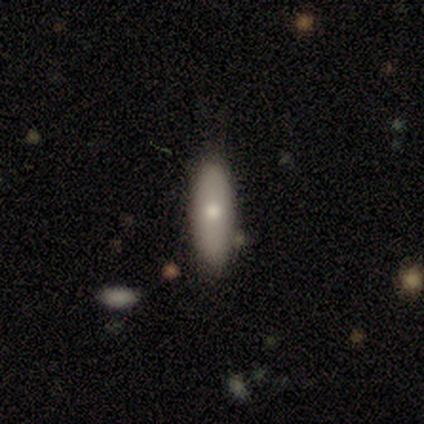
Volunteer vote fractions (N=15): Smooth or featured? 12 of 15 (80%) said smooth. How rounded? 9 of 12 (75%) said in between. Merging? 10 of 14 (71%) said none.